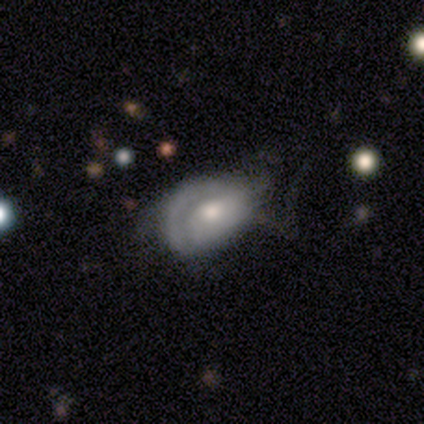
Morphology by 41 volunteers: A featured or disk galaxy (54%) with no bar (82%), tight (50%) spiral arms (73%) and a moderate central bulge (59%). Merging: major disturbance (40%).